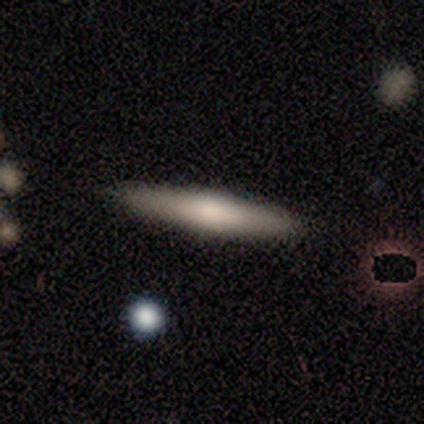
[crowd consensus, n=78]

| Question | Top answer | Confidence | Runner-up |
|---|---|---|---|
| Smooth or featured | smooth | 59% | featured or disk (33%) |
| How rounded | cigar-shaped | 93% | in between (7%) |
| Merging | none | 51% | minor disturbance (4%) |